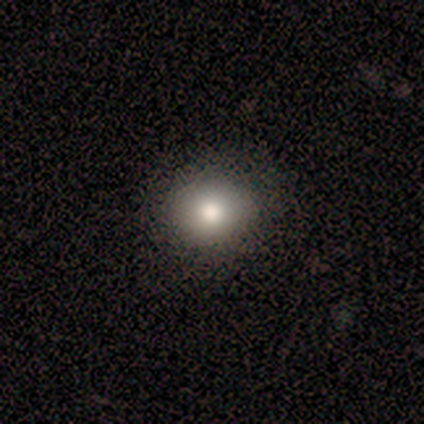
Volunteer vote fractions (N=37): Volunteers were most divided on "how rounded": round: 72%, in between: 28%, cigar-shaped: 0%. More confident: smooth or featured — smooth (86%); merging — none (86%).